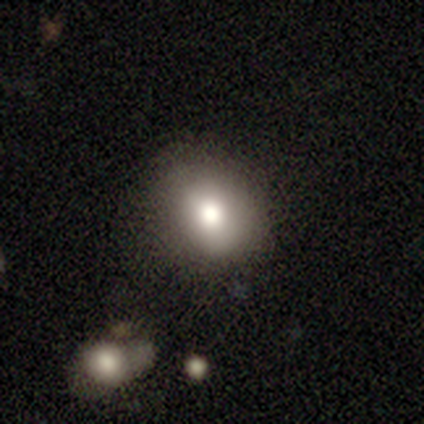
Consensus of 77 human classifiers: smooth 86%, star or artifact 9%, featured or disk 5%. Down the decision tree: how rounded — round (59%); merging — none (37%).